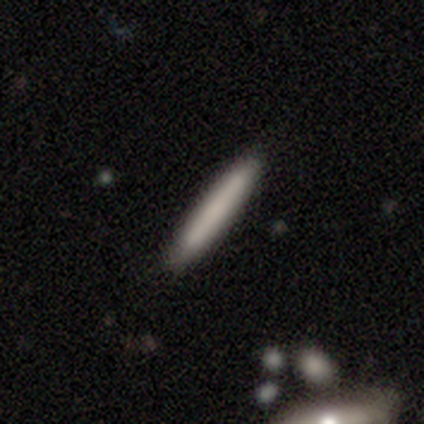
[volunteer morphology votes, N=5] Overall: smooth (100%). How rounded: cigar-shaped (100%). Merging: none (100%).